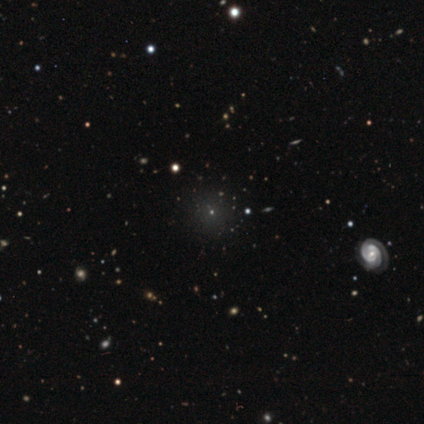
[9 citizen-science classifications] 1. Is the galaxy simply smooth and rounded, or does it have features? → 56% featured or disk, 44% smooth, 0% star or artifact.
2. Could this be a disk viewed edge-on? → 80% no, 20% yes.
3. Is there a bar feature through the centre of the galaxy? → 100% no, 0% strong, 0% weak.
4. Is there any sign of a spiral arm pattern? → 50% yes (tied), 50% no (tied).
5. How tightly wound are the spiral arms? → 100% tight, 0% medium, 0% loose.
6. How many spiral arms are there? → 50% 2 (tied), 50% 4 (tied), 0% 1, 0% 3, 0% more than 4, 0% can't tell.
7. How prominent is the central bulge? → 75% small, 25% moderate, 0% dominant, 0% large, 0% none.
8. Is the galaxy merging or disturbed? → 78% none, 22% minor disturbance, 0% major disturbance, 0% merger.